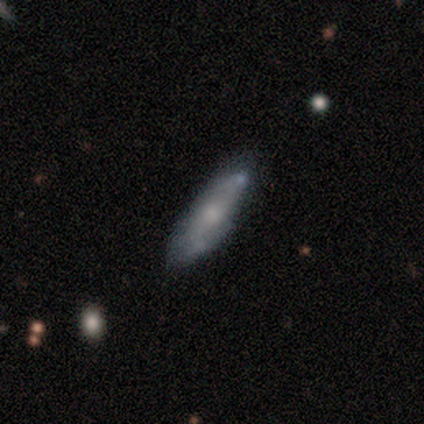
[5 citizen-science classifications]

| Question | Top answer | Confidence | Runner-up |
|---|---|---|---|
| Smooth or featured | featured or disk | 60% | smooth (40%) |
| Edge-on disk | no | 67% | yes (33%) |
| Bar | no | 100% | — |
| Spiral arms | no | 100% | — |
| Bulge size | small | 50% | tied: none (50%) |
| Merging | none | 80% | minor disturbance (20%) |